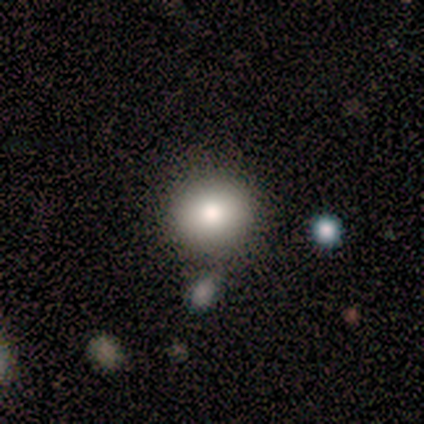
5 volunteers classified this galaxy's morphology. smooth-or-featured: smooth: 80% | star or artifact: 20% | featured or disk: 0%
  how-rounded: round: 100% | in between: 0% | cigar-shaped: 0%
  merging: none: 75% | minor disturbance: 25% | major disturbance: 0% | merger: 0%